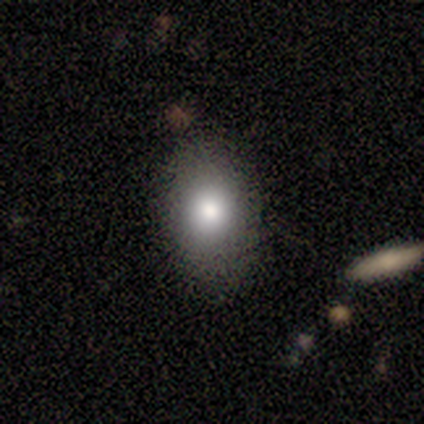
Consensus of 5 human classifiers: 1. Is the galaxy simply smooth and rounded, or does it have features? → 100% smooth, 0% featured or disk, 0% star or artifact.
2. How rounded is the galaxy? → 100% in between, 0% round, 0% cigar-shaped.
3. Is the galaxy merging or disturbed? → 100% none, 0% minor disturbance, 0% major disturbance, 0% merger.